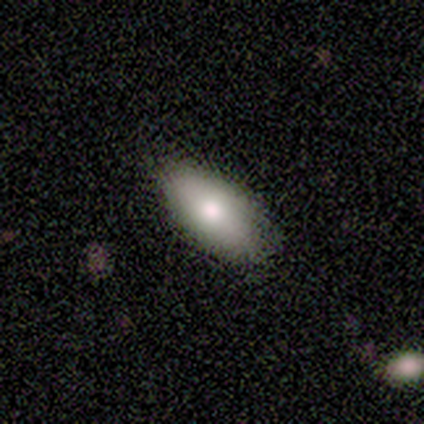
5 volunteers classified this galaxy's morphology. This appears to be a smooth galaxy with no disk features (80%) that is in between round and cigar-shaped (75%). Merging: none (75%).